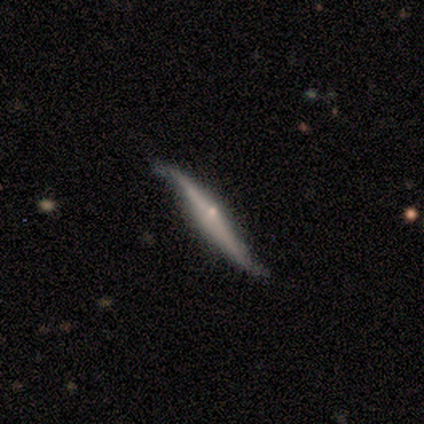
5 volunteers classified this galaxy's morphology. Smooth or featured? featured or disk (80%)
Edge-on disk? yes (100%)
Edge-on bulge? none (50%, tied with rounded)
Merging? minor disturbance (80%)